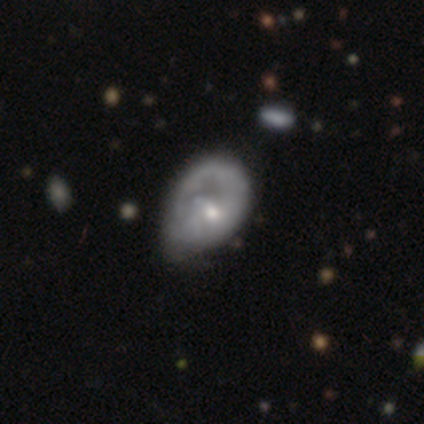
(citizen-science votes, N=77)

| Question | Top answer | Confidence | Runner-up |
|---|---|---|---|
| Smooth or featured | featured or disk | 68% | smooth (27%) |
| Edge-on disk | no | 100% | — |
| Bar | no | 69% | weak (25%) |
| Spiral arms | yes | 50% | tied: no (50%) |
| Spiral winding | tight | 50% | loose (31%) |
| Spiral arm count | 1 | 46% | tied: can't tell (46%) |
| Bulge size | small | 63% | moderate (31%) |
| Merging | minor disturbance | 23% | none (15%) |